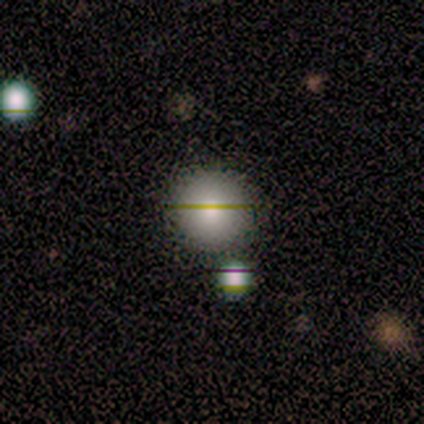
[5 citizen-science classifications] A smooth galaxy with no disk features (40%, tied with star or artifact) that is round (100%). Merging: minor disturbance (67%).